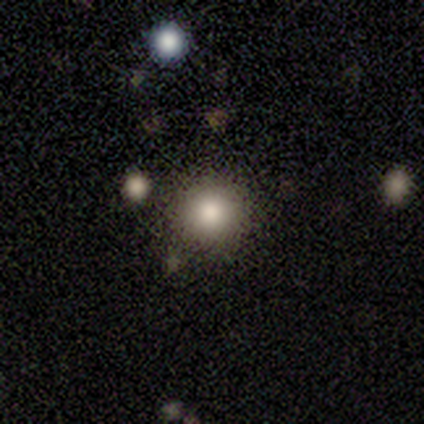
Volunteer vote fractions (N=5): smooth_or_featured: star or artifact (p=0.60) [alt: smooth p=0.40]